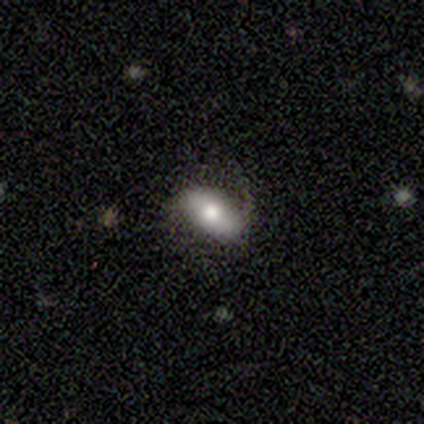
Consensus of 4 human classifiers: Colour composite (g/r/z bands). It shows a smooth galaxy with no disk features (75%) that is in between round and cigar-shaped (100%). Merging: none (100%).